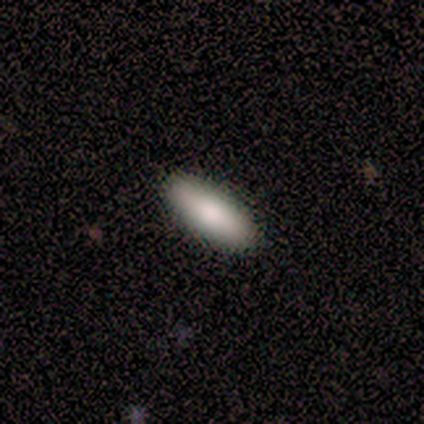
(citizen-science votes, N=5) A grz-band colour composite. It shows a smooth galaxy with no disk features (80%) that is in between round and cigar-shaped (50%, tied with cigar-shaped). Merging: none (100%).